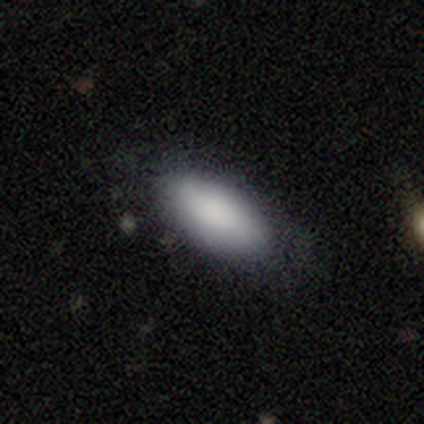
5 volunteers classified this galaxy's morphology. A smooth galaxy with no disk features (80%) that is in between round and cigar-shaped (100%).

Vote fractions:
- Smooth or featured? smooth: 80% / featured or disk: 20% / star or artifact: 0%
- How rounded? in between: 100% / round: 0% / cigar-shaped: 0%
- Merging? none: 80% / minor disturbance: 20% / major disturbance: 0% / merger: 0%